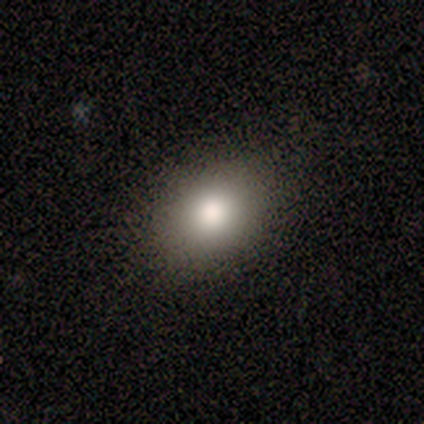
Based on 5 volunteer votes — This is clearly a smooth galaxy (80%). How rounded: likely in between (75%). Merging: clearly none (100%).